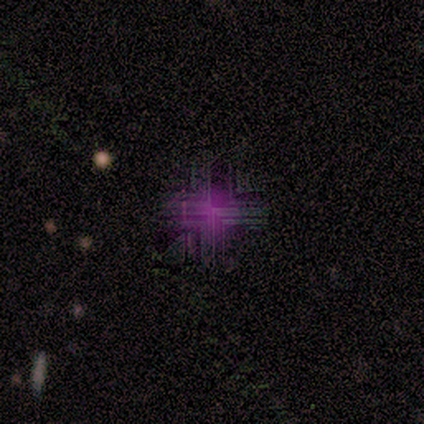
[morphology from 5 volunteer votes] star or artifact 80%, featured or disk 20%, smooth 0%.